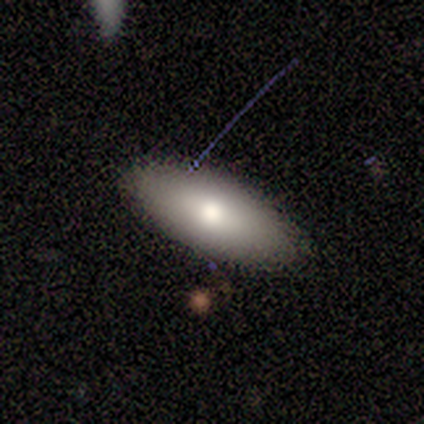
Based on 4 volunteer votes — Smooth or featured? smooth (100%)
How rounded? in between (100%)
Merging? none (100%)